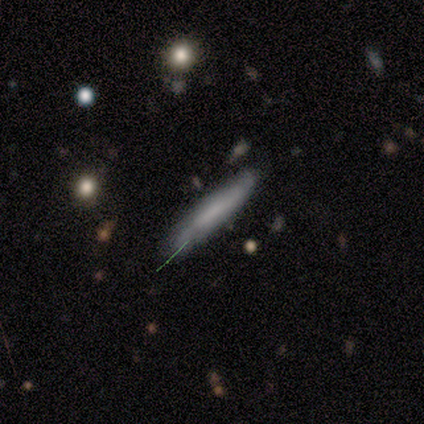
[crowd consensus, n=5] Overall: smooth (60%; featured or disk 40%). How rounded: cigar-shaped (100%). Merging: minor disturbance (60%; none 40%).